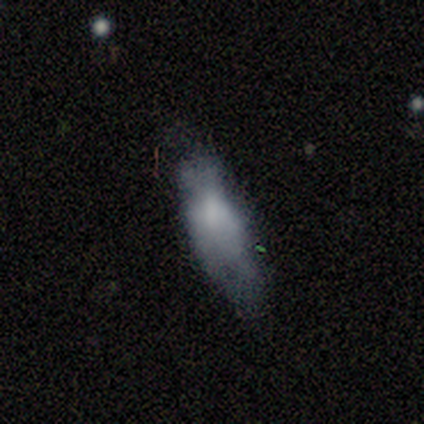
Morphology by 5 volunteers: Smooth or featured: smooth — 60% (featured or disk — 40%)
How rounded: in between — 100%
Merging: minor disturbance — 60% (none — 40%)